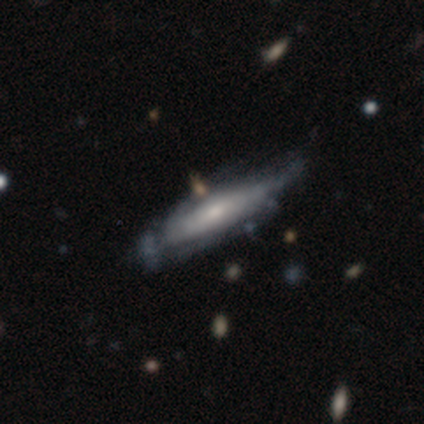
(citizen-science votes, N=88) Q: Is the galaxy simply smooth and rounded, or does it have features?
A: featured or disk — 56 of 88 (64%).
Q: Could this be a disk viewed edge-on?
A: no — 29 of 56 (52%).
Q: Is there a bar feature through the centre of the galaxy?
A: no — 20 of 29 (69%).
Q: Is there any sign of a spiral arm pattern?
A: yes — 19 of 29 (66%).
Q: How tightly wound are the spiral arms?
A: tight — 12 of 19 (63%).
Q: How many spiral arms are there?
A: can't tell — 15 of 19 (79%).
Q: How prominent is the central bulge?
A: small — 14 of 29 (48%).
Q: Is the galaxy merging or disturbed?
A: none — 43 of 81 (53%).